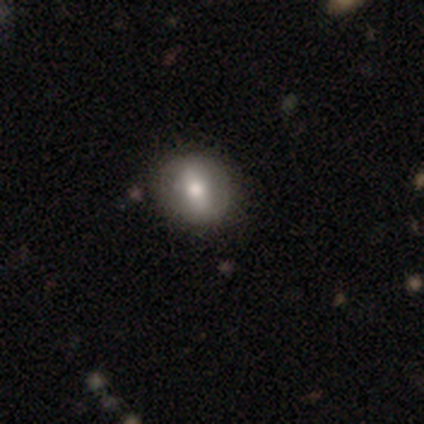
Smooth or featured?
  - smooth: 80% *
  - featured or disk: 20%
  - star or artifact: 0%
How rounded?
  - in between: 50% *
  - round: 25%
  - cigar-shaped: 25%
Merging?
  - none: 40% * (tied)
  - major disturbance: 40% * (tied)
  - minor disturbance: 20%
  - merger: 0%